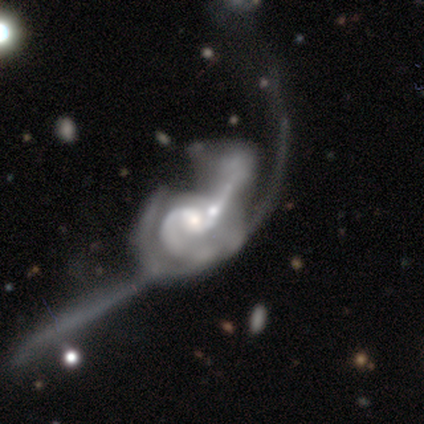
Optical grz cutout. It shows a featured or disk galaxy (100%) with no bar (80%), 2 (50%) loose (50%) spiral arms (80%) and a small central bulge (60%). Merging: major disturbance (60%).